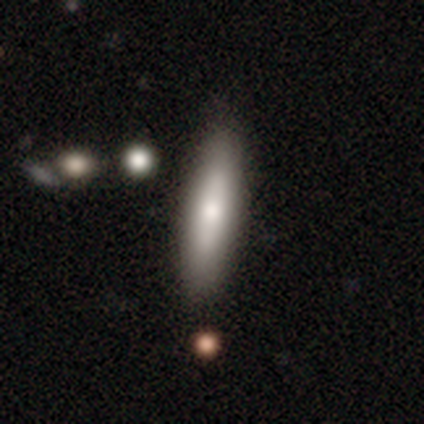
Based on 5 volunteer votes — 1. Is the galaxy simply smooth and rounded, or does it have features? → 80% smooth, 20% featured or disk, 0% star or artifact.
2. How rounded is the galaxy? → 75% cigar-shaped, 25% in between, 0% round.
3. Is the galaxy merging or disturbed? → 80% none, 20% minor disturbance, 0% major disturbance, 0% merger.